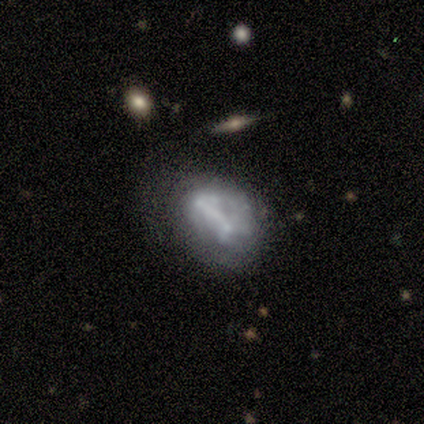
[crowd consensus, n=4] Morphology: type=featured or disk (100%); edge-on=no (100%); bar=strong (75%); spiral arms=no (100%); bulge=none (50%); merging=none (75%).